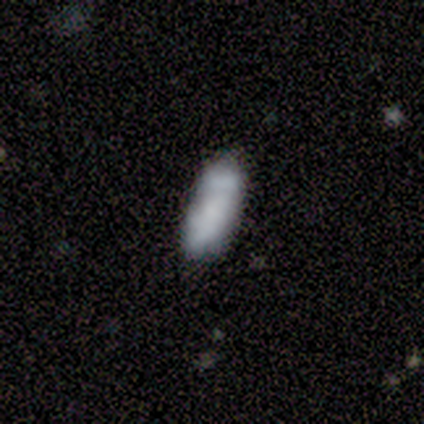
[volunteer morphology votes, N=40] Smooth or featured? 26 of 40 (65%) said smooth. How rounded? 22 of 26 (85%) said in between. Merging? 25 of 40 (62%) said none.